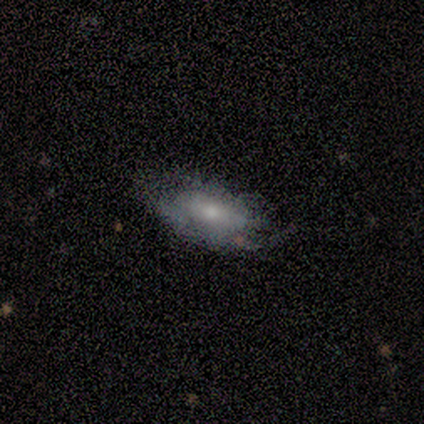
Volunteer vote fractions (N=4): Smooth or featured? 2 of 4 (50%, tied with featured or disk) said smooth. How rounded? 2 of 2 (100%) said in between. Merging? 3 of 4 (75%) said none.